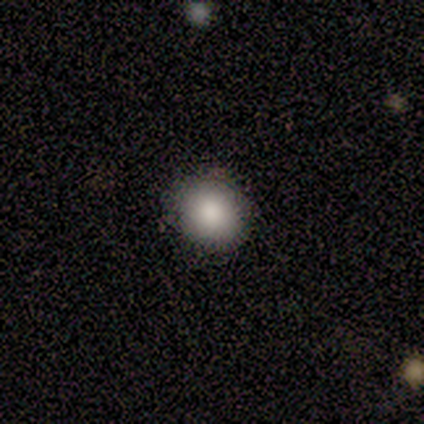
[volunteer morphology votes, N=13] Overall: smooth (69%). How rounded: round (67%; in between 33%). Merging: none (100%).